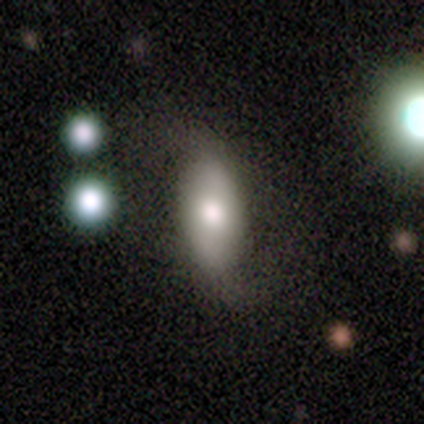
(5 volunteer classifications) Smooth or featured? featured or disk (60%)
Edge-on disk? no (100%)
Bar? strong (33%, tied with weak and no)
Spiral arms? yes (67%)
Spiral winding? loose (100%)
Spiral arm count? 2 (100%)
Bulge size? moderate (67%)
Merging? none (80%)